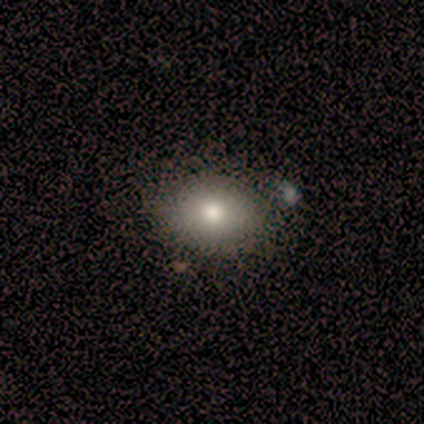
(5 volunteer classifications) Overall: smooth (100%). How rounded: in between (60%; round 40%). Merging: none (60%; minor disturbance 40%).